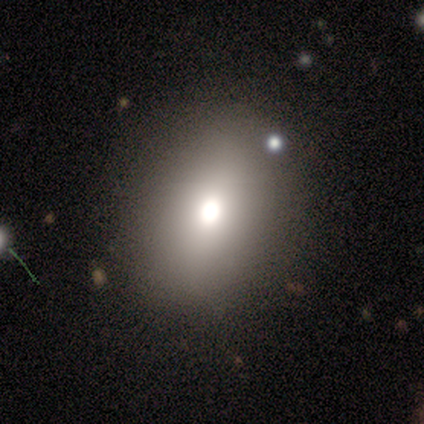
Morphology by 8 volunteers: This is likely a smooth galaxy (75%). How rounded: clearly in between (83%). Merging: clearly none (100%).